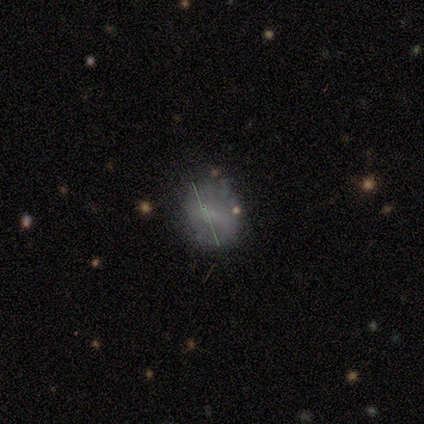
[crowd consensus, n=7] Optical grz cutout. It shows a smooth galaxy with no disk features (57%) that is round (75%). Merging: none (86%).